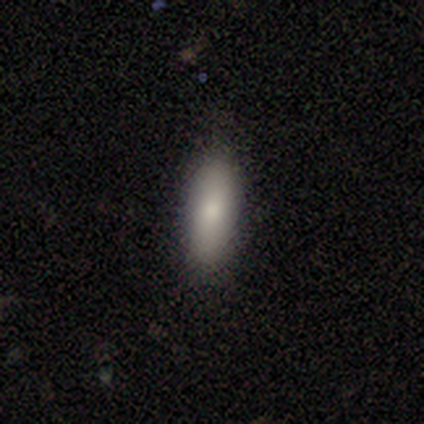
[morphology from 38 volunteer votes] This appears to be a smooth galaxy with no disk features (82%) that is in between round and cigar-shaped (61%). Merging: none (77%).